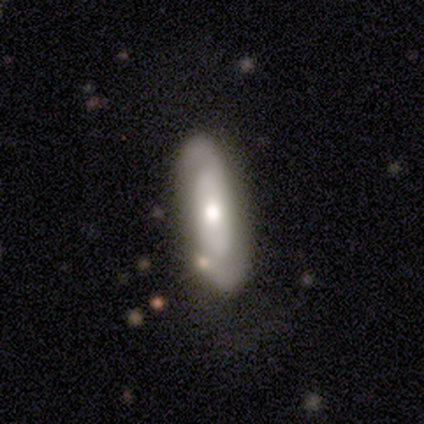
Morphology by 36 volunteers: A featured or disk galaxy (67%) with no bar (88%), 2 (78%) loose (44%) spiral arms (53%) and a moderate central bulge (59%).

Vote fractions:
- Smooth or featured? featured or disk: 67% / smooth: 28% / star or artifact: 6%
- Edge-on disk? no: 71% / yes: 29%
- Bar? no: 88% / strong: 6% / weak: 6%
- Spiral arms? yes: 53% / no: 47%
- Spiral winding? loose: 44% / tight: 33% / medium: 22%
- Spiral arm count? 2: 78% / can't tell: 22% / 1: 0% / 3: 0% / 4: 0% / more than 4: 0%
- Bulge size? moderate: 59% / large: 24% / small: 18% / dominant: 0% / none: 0%
- Merging? none: 68% / minor disturbance: 21% / merger: 12% / major disturbance: 0%